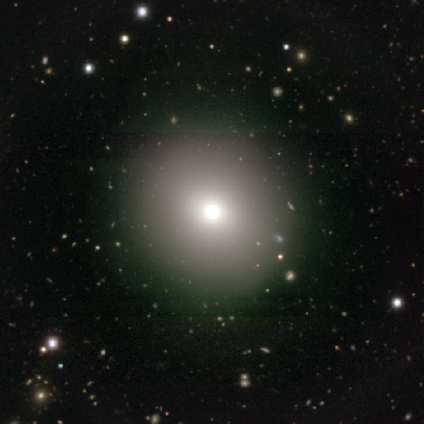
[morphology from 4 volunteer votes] smooth_or_featured: smooth (p=0.50) [tied with: featured or disk p=0.50]
how_rounded: round (p=1.00)
merging: none (p=0.75) [alt: minor disturbance p=0.25]